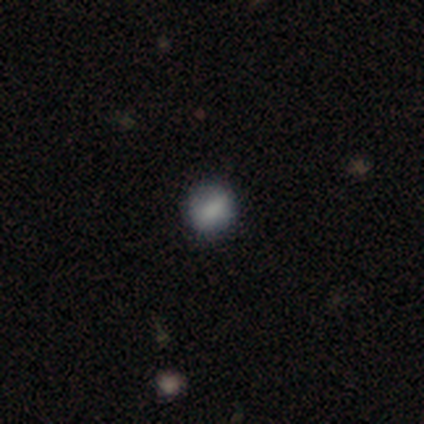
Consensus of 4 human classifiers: Smooth or featured? smooth (50%)
How rounded? round (100%)
Merging? none (100%)